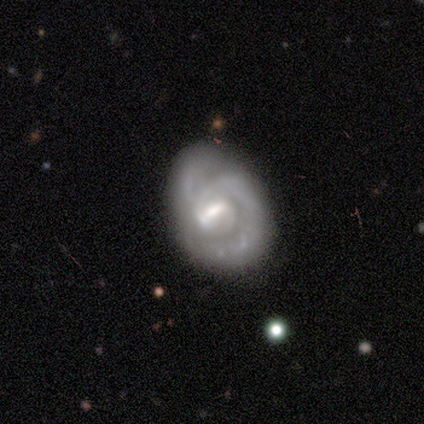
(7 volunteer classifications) Smooth or featured? 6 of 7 (86%) said featured or disk. Edge-on disk? 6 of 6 (100%) said no. Bar? 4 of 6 (67%) said weak. Spiral arms? 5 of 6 (83%) said yes. Spiral winding? 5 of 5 (100%) said tight. Spiral arm count? 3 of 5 (60%) said 1. Bulge size? 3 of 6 (50%) said small. Merging? 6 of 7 (86%) said none.